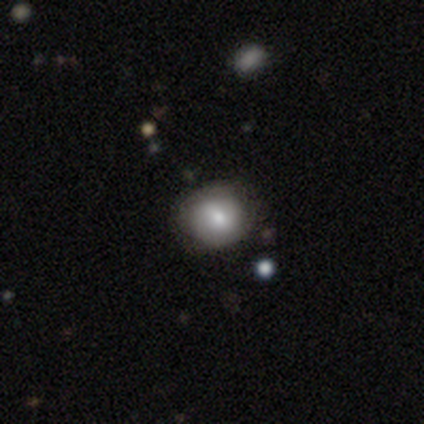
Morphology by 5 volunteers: This is clearly a smooth galaxy (80%). How rounded: likely round (75%). Merging: clearly none (80%).